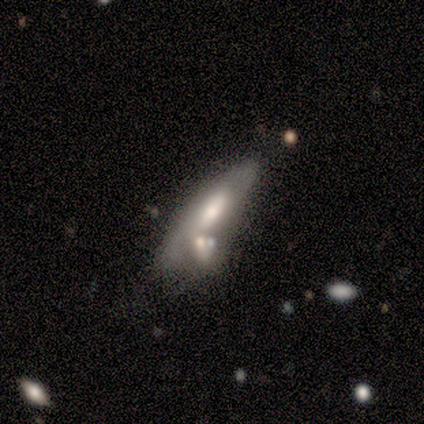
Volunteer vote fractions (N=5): Smooth or featured: featured or disk — 60% (star or artifact — 40%)
Edge-on disk: no — 67% (yes — 33%)
Bar: weak — 50% (tied with no — 50%)
Spiral arms: yes — 50% (tied with no — 50%)
Spiral winding: medium — 100%
Spiral arm count: can't tell — 100%
Bulge size: moderate — 100%
Merging: merger — 67% (none — 33%)